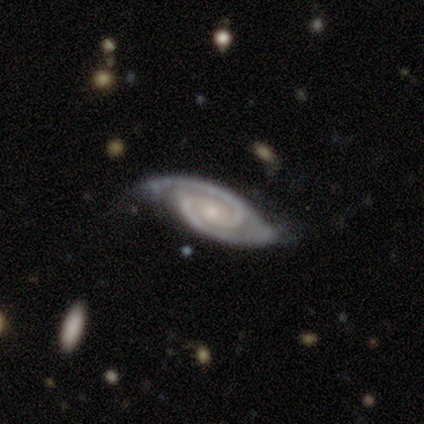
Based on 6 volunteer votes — This appears to be a featured or disk galaxy (100%) with no bar (67%), 2 (100%) tight (83%) spiral arms (100%) and a small central bulge (83%). Merging: none (67%).